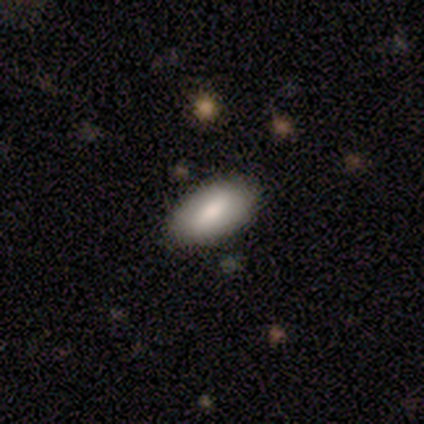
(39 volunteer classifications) smooth-or-featured: smooth: 77% | featured or disk: 18% | star or artifact: 5%
  how-rounded: in between: 93% | cigar-shaped: 7% | round: 0%
  merging: none: 89% | minor disturbance: 11% | major disturbance: 0% | merger: 0%